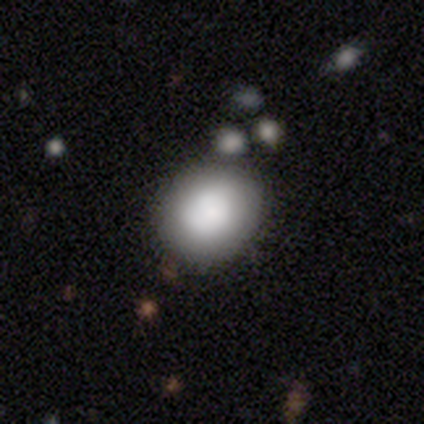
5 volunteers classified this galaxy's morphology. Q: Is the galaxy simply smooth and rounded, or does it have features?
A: smooth — 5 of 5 (100%).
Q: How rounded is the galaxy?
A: round — 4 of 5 (80%).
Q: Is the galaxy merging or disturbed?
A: none — 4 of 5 (80%).